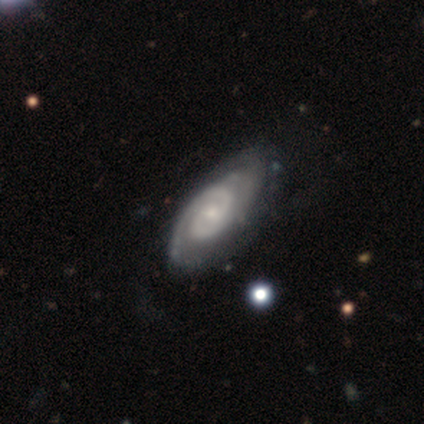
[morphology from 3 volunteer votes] smooth-or-featured: featured or disk: 100% | smooth: 0% | star or artifact: 0%
  disk-edge-on: no: 100% | yes: 0%
    bar: weak: 67% | no: 33% | strong: 0%
    has-spiral-arms: yes: 100% | no: 0%
      spiral-winding: tight: 67% | medium: 33% | loose: 0%
      spiral-arm-count: 2: 67% | 1: 33% | 3: 0% | 4: 0% | more than 4: 0% | can't tell: 0%
    bulge-size: small: 67% | moderate: 33% | dominant: 0% | large: 0% | none: 0%
  merging: none: 67% | minor disturbance: 33% | major disturbance: 0% | merger: 0%